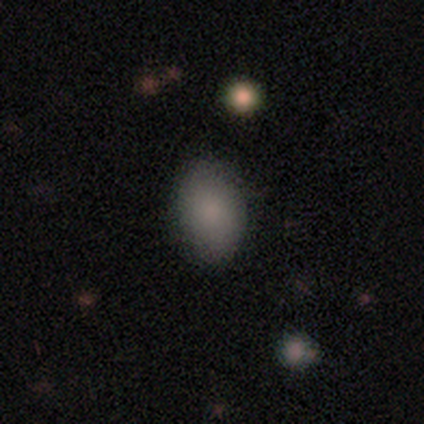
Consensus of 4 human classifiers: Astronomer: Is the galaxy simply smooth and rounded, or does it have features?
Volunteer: smooth — 75%.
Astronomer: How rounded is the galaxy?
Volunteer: in between — 67%.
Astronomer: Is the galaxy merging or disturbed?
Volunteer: none — 75%.